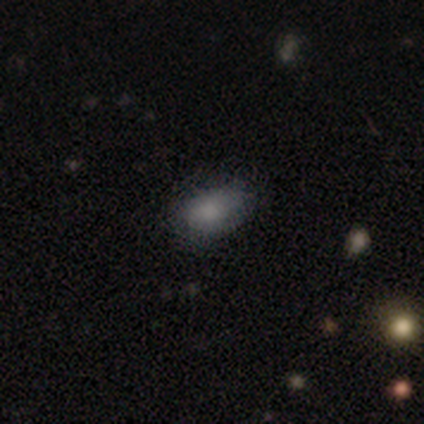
smooth 100%, featured or disk 0%, star or artifact 0%. Down the decision tree: how rounded — in between (100%); merging — none (67%).